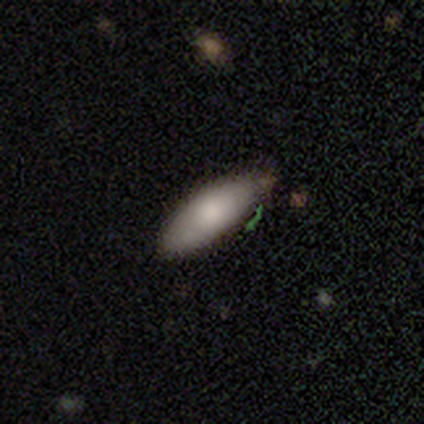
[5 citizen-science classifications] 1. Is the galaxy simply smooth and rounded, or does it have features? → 80% smooth, 20% featured or disk, 0% star or artifact.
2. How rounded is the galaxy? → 75% in between, 25% cigar-shaped, 0% round.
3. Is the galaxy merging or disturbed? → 100% none, 0% minor disturbance, 0% major disturbance, 0% merger.